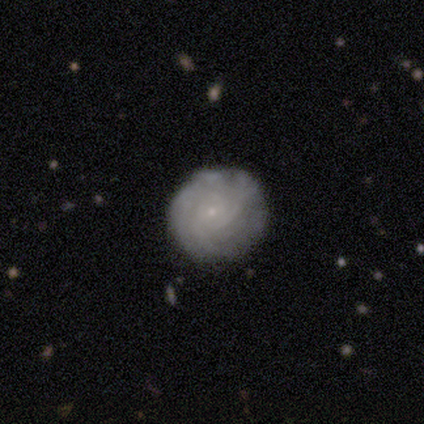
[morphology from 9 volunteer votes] A featured or disk galaxy (89%) with no bar (100%), tight (86%) spiral arms (88%) and a small central bulge (100%).

Vote fractions:
- Smooth or featured? featured or disk: 89% / smooth: 11% / star or artifact: 0%
- Edge-on disk? no: 100% / yes: 0%
- Bar? no: 100% / strong: 0% / weak: 0%
- Spiral arms? yes: 88% / no: 12%
- Spiral winding? tight: 86% / medium: 14% / loose: 0%
- Spiral arm count? can't tell: 57% / 3: 29% / 2: 14% / 1: 0% / 4: 0% / more than 4: 0%
- Bulge size? small: 100% / dominant: 0% / large: 0% / moderate: 0% / none: 0%
- Merging? none: 89% / minor disturbance: 11% / major disturbance: 0% / merger: 0%